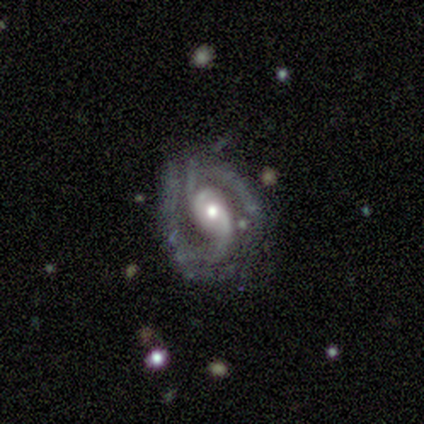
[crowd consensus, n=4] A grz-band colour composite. It shows a featured or disk galaxy (100%) with no bar (75%), 2 (75%) medium (50%) spiral arms (100%) and a small central bulge (75%). Merging: none (50%, tied with minor disturbance).